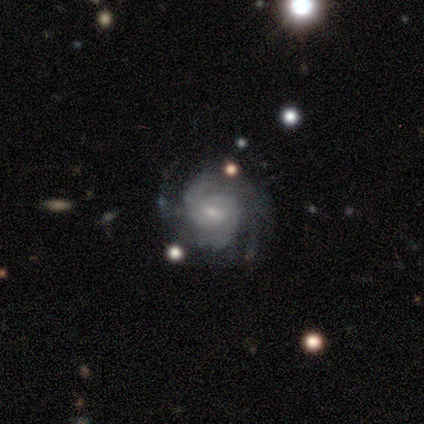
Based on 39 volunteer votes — featured or disk 87%, smooth 8%, star or artifact 5%. Down the decision tree: edge-on disk — no (100%); bar — weak (65%); spiral arms — yes (100%); spiral arm count — 2 (26%, tied with can't tell); spiral winding — tight (71%); bulge size — small (74%); merging — none (84%).